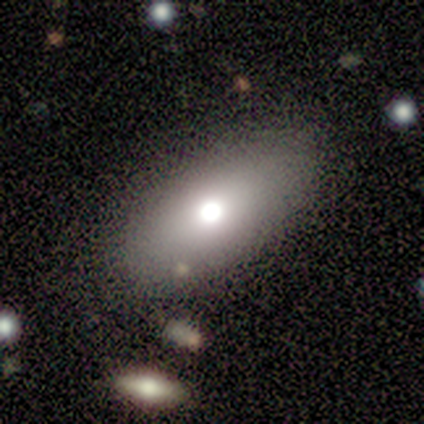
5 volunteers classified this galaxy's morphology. smooth_or_featured: smooth (p=1.00)
how_rounded: in between (p=1.00)
merging: none (p=1.00)